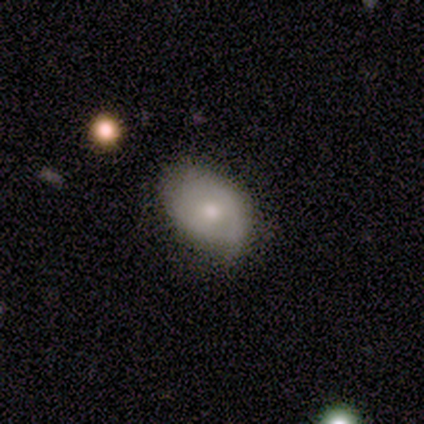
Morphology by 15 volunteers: smooth-or-featured: featured or disk: 67% | smooth: 27% | star or artifact: 7%
  disk-edge-on: no: 90% | yes: 10%
    bar: no: 89% | weak: 11% | strong: 0%
    has-spiral-arms: no: 67% | yes: 33%
    bulge-size: moderate: 67% | small: 33% | dominant: 0% | large: 0% | none: 0%
  merging: none: 64% | minor disturbance: 36% | major disturbance: 0% | merger: 0%